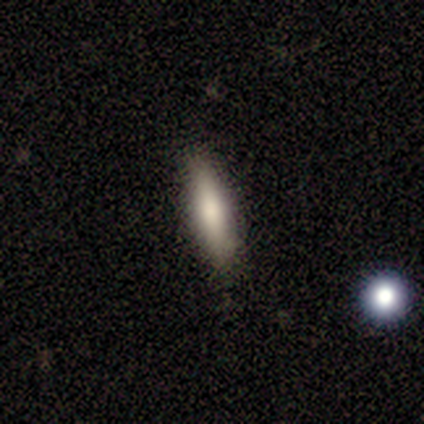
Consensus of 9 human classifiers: A smooth galaxy with no disk features (78%) that is cigar-shaped (71%). Merging: none (78%).